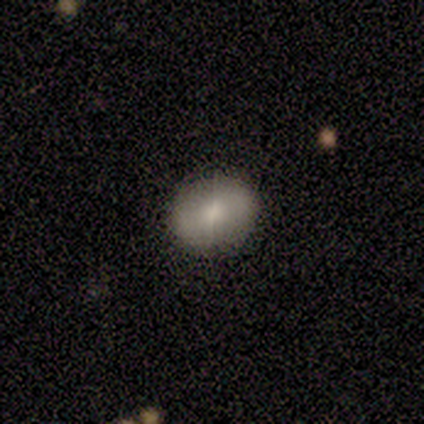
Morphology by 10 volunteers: Smooth or featured: smooth — 80% (star or artifact — 20%)
How rounded: round — 50% (tied with in between — 50%)
Merging: none — 100%